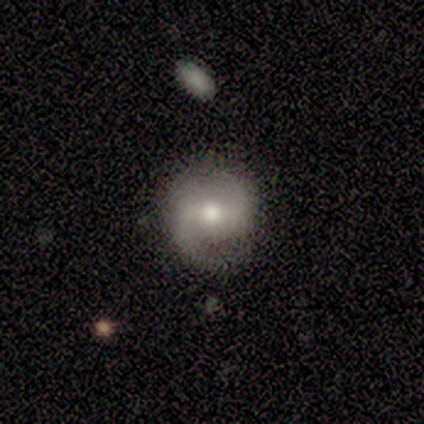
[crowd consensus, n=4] This is likely a featured or disk galaxy (75%). It is clearly not viewed edge-on (100%). Bar: likely weak (67%). Spiral arm pattern: likely yes (67%). Spiral arm count: clearly 2 (100%). Spiral winding: possibly medium (50%, tied with loose). Central bulge: marginally large (33%, tied with moderate and small). Merging: clearly none (100%).